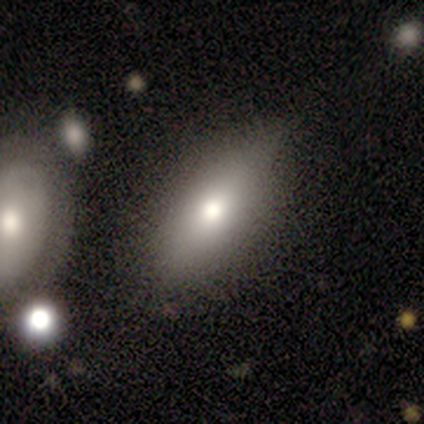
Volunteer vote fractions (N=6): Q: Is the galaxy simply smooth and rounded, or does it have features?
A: smooth — 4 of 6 (67%).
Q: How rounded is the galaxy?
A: in between — 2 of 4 (50%).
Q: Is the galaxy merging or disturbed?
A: none — 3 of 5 (60%).